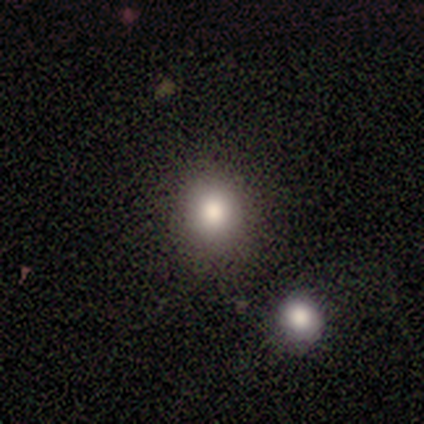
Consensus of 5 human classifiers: Smooth or featured: smooth — 80% (star or artifact — 20%)
How rounded: round — 75% (in between — 25%)
Merging: none — 75% (merger — 25%)